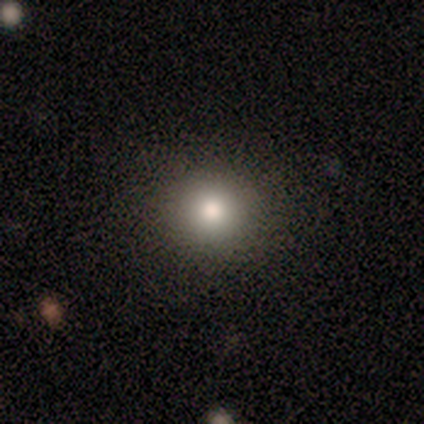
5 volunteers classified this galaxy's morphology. Q: Smooth or featured?
A: smooth (80%); runner-up: star or artifact (20%)
Q: How rounded?
A: round (75%); runner-up: in between (25%)
Q: Merging?
A: none (75%); runner-up: major disturbance (25%)